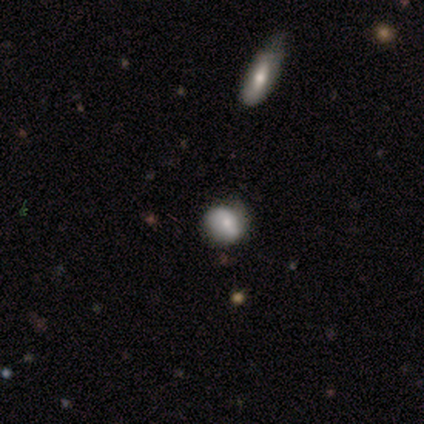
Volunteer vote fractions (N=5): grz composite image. It shows a smooth galaxy with no disk features (60%) that is round (67%). Merging: none (100%).